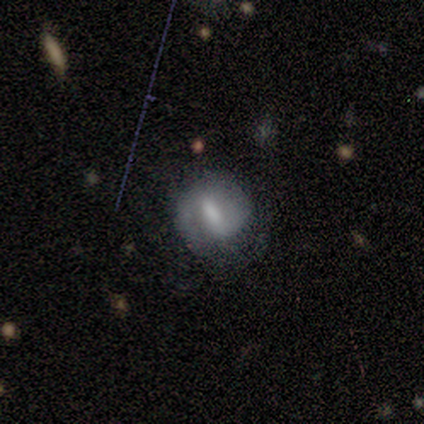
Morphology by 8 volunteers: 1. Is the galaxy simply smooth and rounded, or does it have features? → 50% featured or disk, 38% smooth, 12% star or artifact.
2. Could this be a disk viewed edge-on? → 100% no, 0% yes.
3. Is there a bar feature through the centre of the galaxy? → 100% strong, 0% weak, 0% no.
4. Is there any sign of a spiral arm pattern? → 100% yes, 0% no.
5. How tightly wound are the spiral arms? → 50% tight (tied), 50% medium (tied), 0% loose.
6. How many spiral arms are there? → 75% 2, 25% 1, 0% 3, 0% 4, 0% more than 4, 0% can't tell.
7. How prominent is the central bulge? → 50% small, 25% large, 25% none, 0% dominant, 0% moderate.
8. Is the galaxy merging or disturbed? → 71% none, 14% minor disturbance, 14% merger, 0% major disturbance.